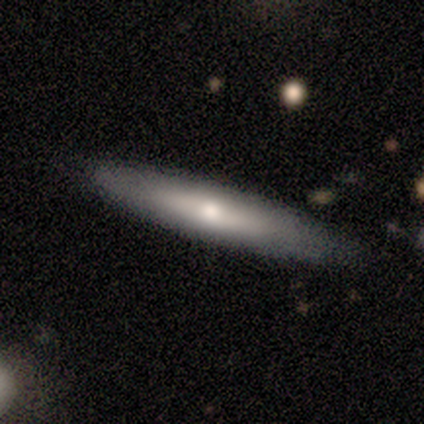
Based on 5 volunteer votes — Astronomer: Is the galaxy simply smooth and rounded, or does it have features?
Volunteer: smooth — 80%.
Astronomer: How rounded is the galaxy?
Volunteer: cigar-shaped — 100%.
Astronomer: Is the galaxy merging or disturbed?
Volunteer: none — 100%.